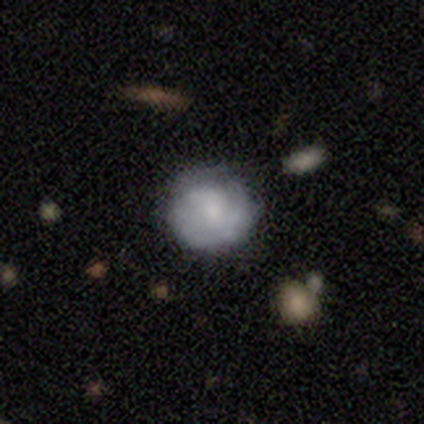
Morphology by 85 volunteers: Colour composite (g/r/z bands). It shows a smooth galaxy with no disk features (55%) that is round (89%). Merging: none (67%).